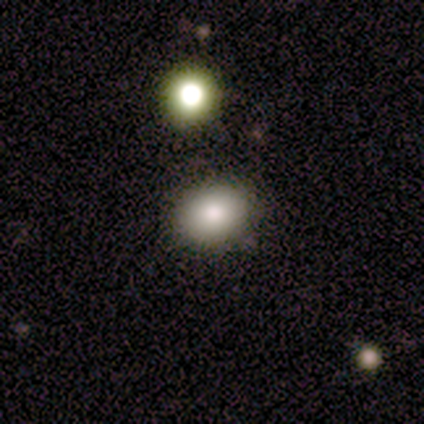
Overall: smooth (100%). How rounded: in between (75%). Merging: none (100%).